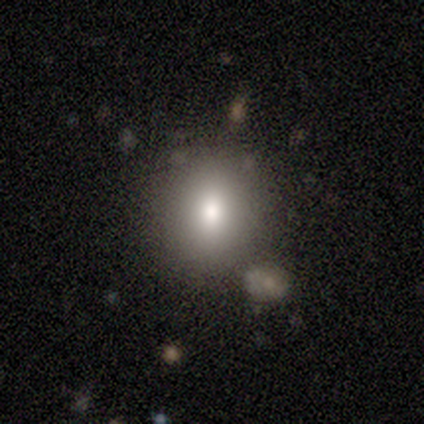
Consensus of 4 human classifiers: A smooth galaxy with no disk features (100%) that is round (75%). Merging: none (100%).